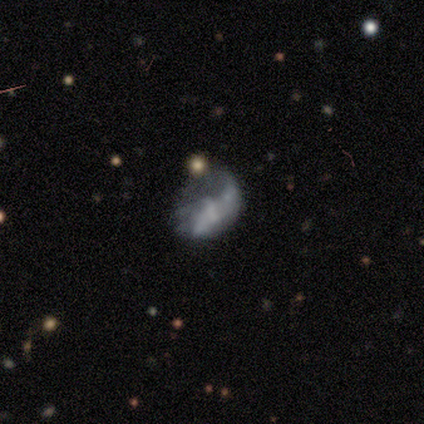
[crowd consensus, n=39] This appears to be a featured or disk galaxy (69%) with no bar (48%), 2 (62%) loose (81%) spiral arms (59%) and no central bulge (59%). Merging: major disturbance (54%).